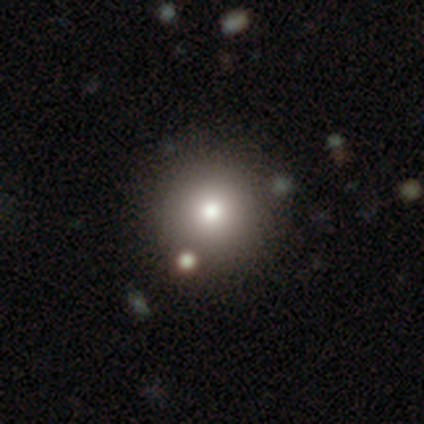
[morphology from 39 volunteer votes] A smooth galaxy with no disk features (82%) that is round (97%). Merging: none (65%).